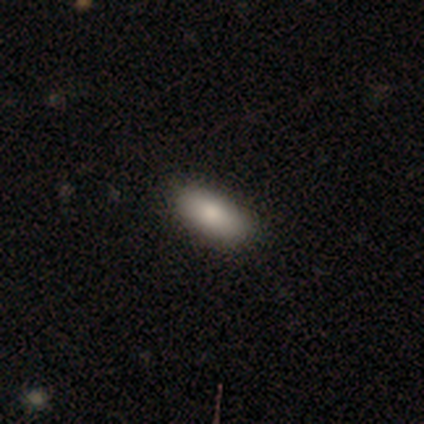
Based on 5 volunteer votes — Smooth or featured? 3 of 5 (60%) said smooth. How rounded? 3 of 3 (100%) said in between. Merging? 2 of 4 (50%, tied with minor disturbance) said none.